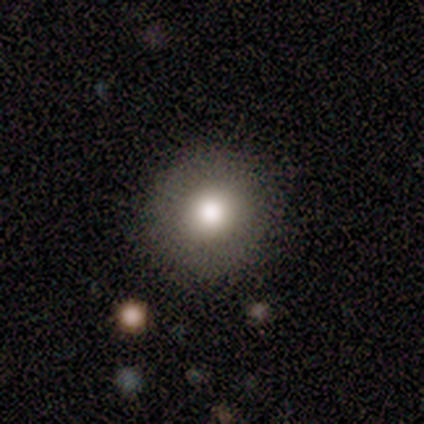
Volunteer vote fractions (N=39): Overall: smooth (85%). How rounded: round (91%). Merging: none (89%).